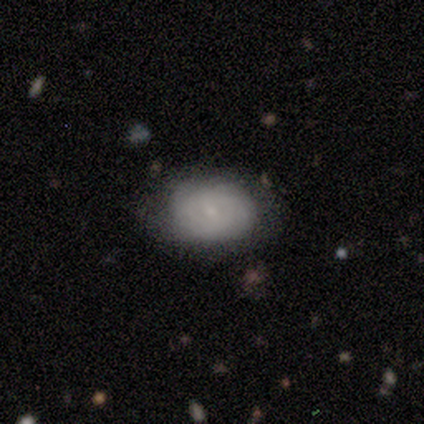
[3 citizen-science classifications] Smooth or featured? featured or disk (67%)
Edge-on disk? no (100%)
Bar? strong (50%, tied with no)
Spiral arms? yes (100%)
Spiral winding? tight (50%, tied with loose)
Spiral arm count? can't tell (100%)
Bulge size? dominant (50%, tied with small)
Merging? none (100%)